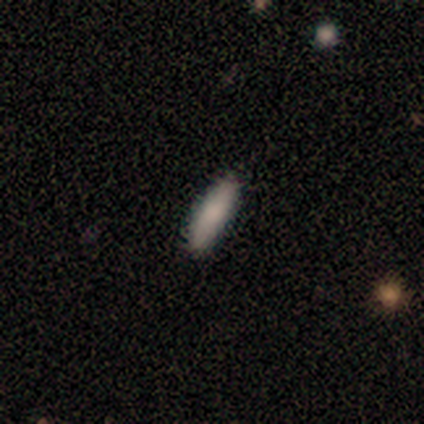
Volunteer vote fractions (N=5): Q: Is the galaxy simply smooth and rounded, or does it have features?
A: smooth — 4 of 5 (80%).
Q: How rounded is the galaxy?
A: cigar-shaped — 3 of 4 (75%).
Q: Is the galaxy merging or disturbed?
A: none — 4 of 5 (80%).